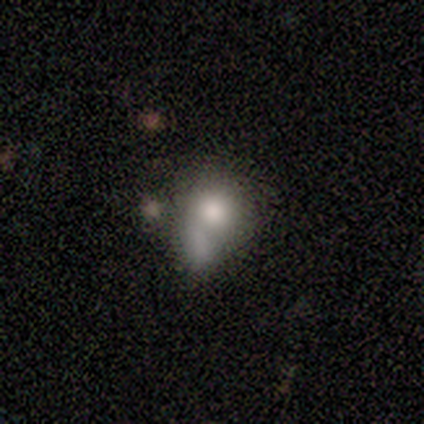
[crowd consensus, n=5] Q: Smooth or featured?
A: featured or disk (60%); runner-up: smooth (40%)
Q: Edge-on disk?
A: no (100%)
Q: Bar?
A: no (100%)
Q: Spiral arms?
A: no (100%)
Q: Bulge size?
A: large (67%); runner-up: moderate (33%)
Q: Merging?
A: merger (60%); runner-up: minor disturbance (40%)